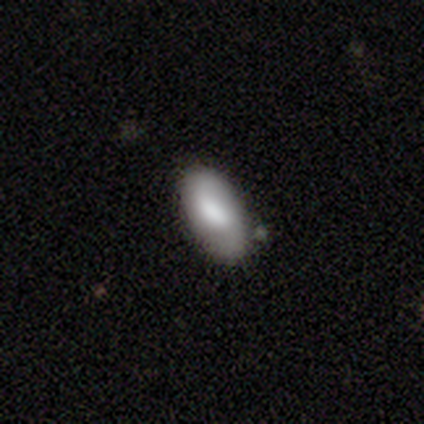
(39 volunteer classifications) A smooth galaxy with no disk features (51%) that is in between round and cigar-shaped (85%).

Vote fractions:
- Smooth or featured? smooth: 51% / featured or disk: 41% / star or artifact: 8%
- How rounded? in between: 85% / cigar-shaped: 10% / round: 5%
- Merging? none: 78% / minor disturbance: 22% / major disturbance: 0% / merger: 0%